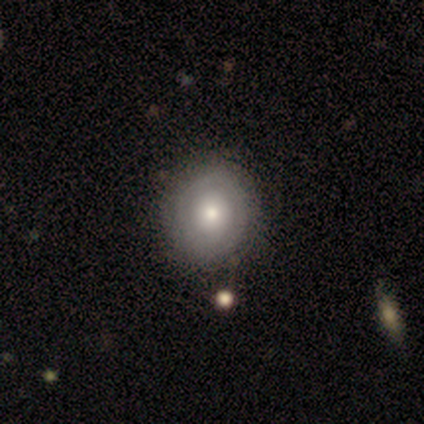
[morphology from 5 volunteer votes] This appears to be a smooth galaxy with no disk features (80%) that is round (100%). Merging: none (60%).